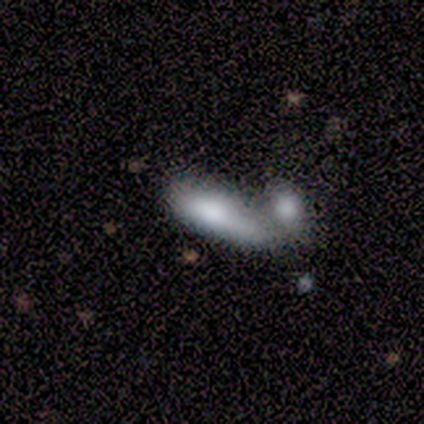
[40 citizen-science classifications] This appears to be a smooth galaxy with no disk features (80%) that is in between round and cigar-shaped (69%). Merging: merger (74%).